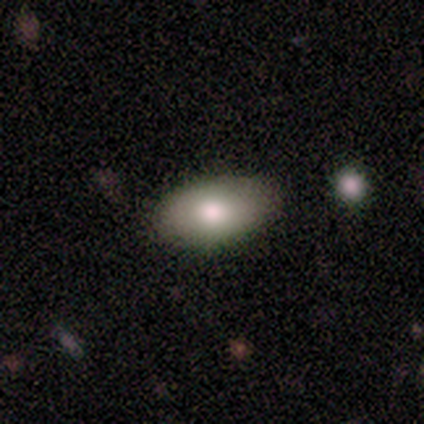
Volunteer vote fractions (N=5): smooth-or-featured: smooth: 80% | star or artifact: 20% | featured or disk: 0%
  how-rounded: in between: 100% | round: 0% | cigar-shaped: 0%
  merging: none: 100% | minor disturbance: 0% | major disturbance: 0% | merger: 0%